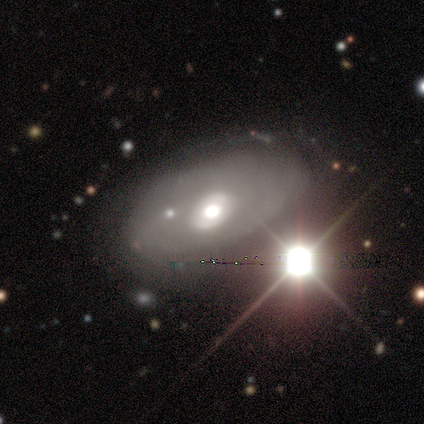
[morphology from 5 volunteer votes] This appears to be a featured or disk galaxy (40%, tied with star or artifact) viewed edge-on (50%, tied with no) with no central bulge (100%). Merging: none (67%).